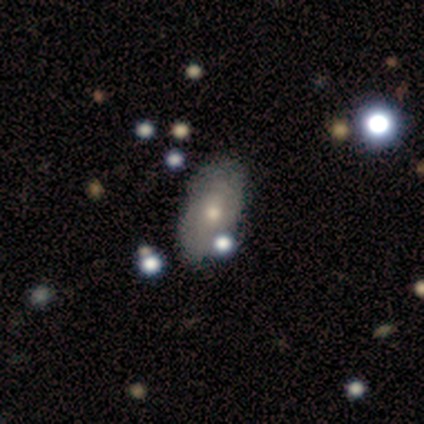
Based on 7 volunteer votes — Smooth or featured? 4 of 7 (57%) said smooth. How rounded? 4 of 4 (100%) said in between. Merging? 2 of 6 (33%, tied with minor disturbance and major disturbance) said none.